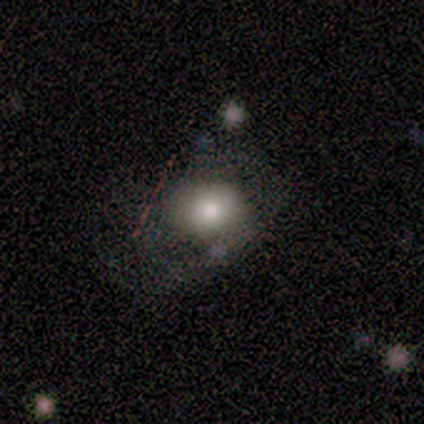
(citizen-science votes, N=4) Volunteers were most divided on "merging" (3-way tie): none: 33%, minor disturbance: 33%, major disturbance: 33%, merger: 0%. More confident: smooth or featured — smooth (75%); how rounded — in between (67%).